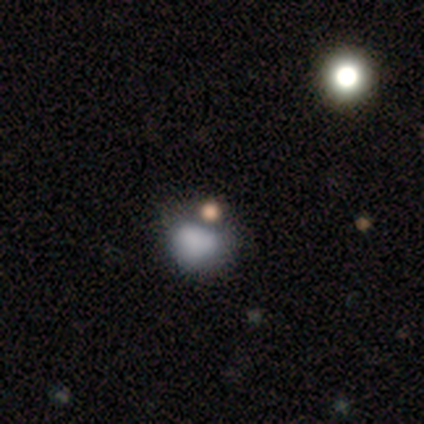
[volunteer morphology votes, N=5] Smooth or featured: smooth — 60% (star or artifact — 40%)
How rounded: in between — 100%
Merging: merger — 67% (major disturbance — 33%)